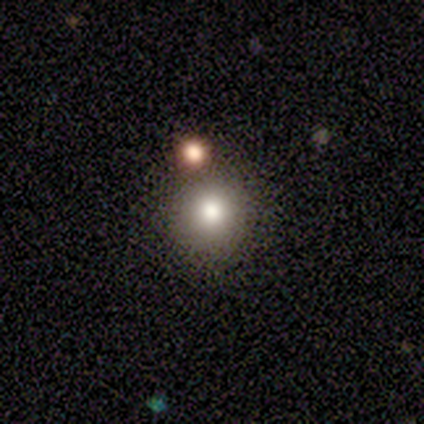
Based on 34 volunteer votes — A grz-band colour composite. It shows a smooth galaxy with no disk features (79%) that is round (93%). Merging: none (79%).